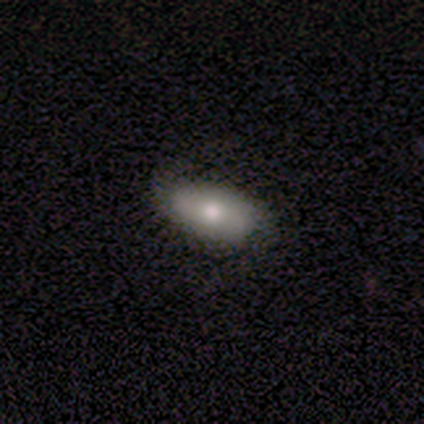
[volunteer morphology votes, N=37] A smooth galaxy with no disk features (49%) that is in between round and cigar-shaped (94%).

Vote fractions:
- Smooth or featured? smooth: 49% / featured or disk: 41% / star or artifact: 11%
- How rounded? in between: 94% / cigar-shaped: 6% / round: 0%
- Merging? none: 70% / minor disturbance: 27% / major disturbance: 3% / merger: 0%